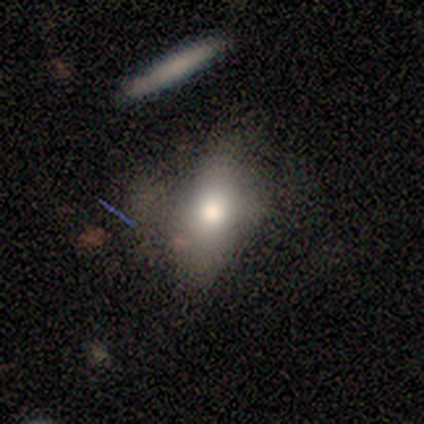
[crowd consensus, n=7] This appears to be a smooth galaxy with no disk features (57%) that is in between round and cigar-shaped (50%). Merging: none (50%, tied with major disturbance).